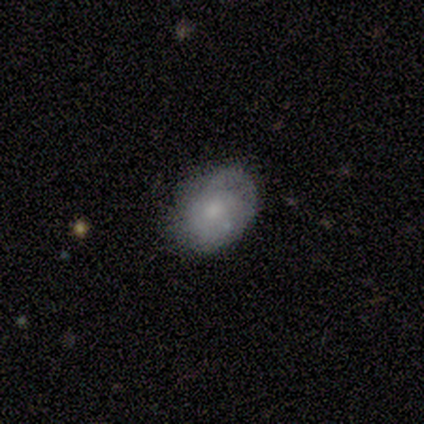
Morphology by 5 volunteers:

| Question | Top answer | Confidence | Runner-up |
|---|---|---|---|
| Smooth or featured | smooth | 80% | featured or disk (20%) |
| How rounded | in between | 75% | round (25%) |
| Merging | none | 100% | — |